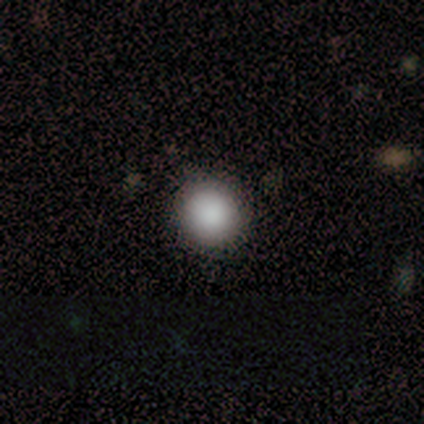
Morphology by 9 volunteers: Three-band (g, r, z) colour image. It shows a smooth galaxy with no disk features (89%) that is round (88%). Merging: none (88%).